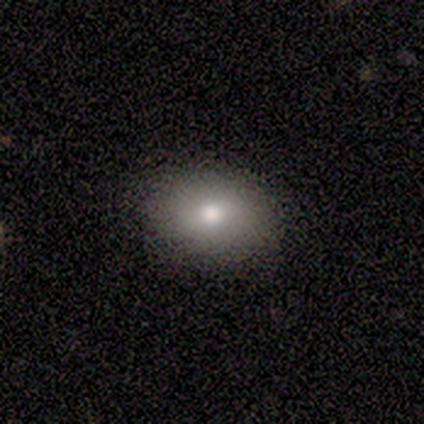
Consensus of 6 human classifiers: Smooth or featured: smooth — 100%
How rounded: in between — 83% (round — 17%)
Merging: none — 100%